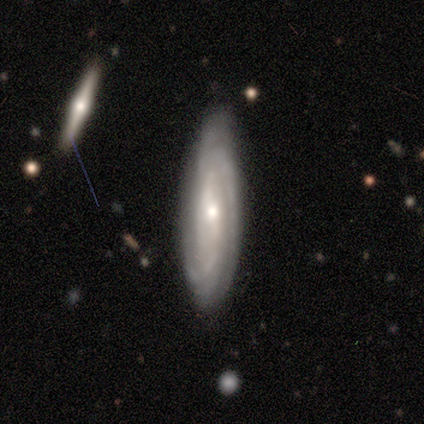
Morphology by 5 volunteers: This is clearly a featured or disk galaxy (80%). It is possibly viewed edge-on (50%, tied with no). Edge-on bulge: clearly rounded (100%). Merging: clearly none (80%).